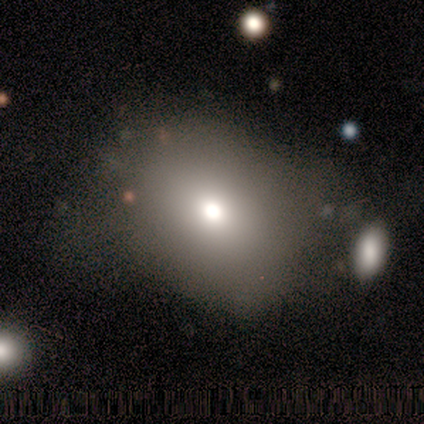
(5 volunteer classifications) Smooth or featured?
  - smooth: 40% * (tied)
  - featured or disk: 40% * (tied)
  - star or artifact: 20%
How rounded?
  - round: 50% * (tied)
  - in between: 50% * (tied)
  - cigar-shaped: 0%
Merging?
  - none: 50% *
  - minor disturbance: 25%
  - major disturbance: 25%
  - merger: 0%